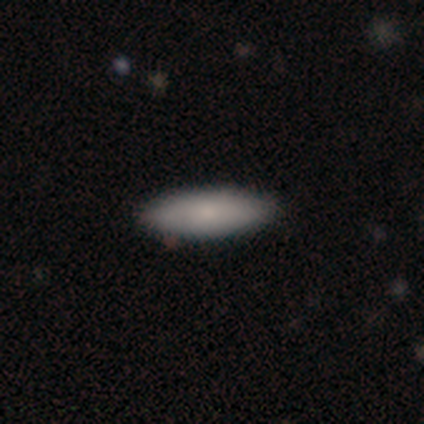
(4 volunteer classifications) smooth-or-featured: smooth: 75% | star or artifact: 25% | featured or disk: 0%
  how-rounded: cigar-shaped: 67% | in between: 33% | round: 0%
  merging: none: 100% | minor disturbance: 0% | major disturbance: 0% | merger: 0%